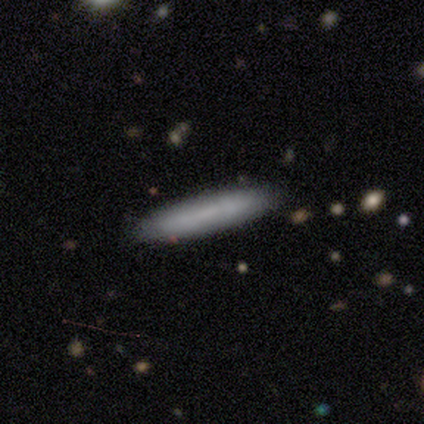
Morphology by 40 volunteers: Smooth or featured?
  - smooth: 80% *
  - featured or disk: 15%
  - star or artifact: 5%
How rounded?
  - cigar-shaped: 91% *
  - in between: 9%
  - round: 0%
Merging?
  - none: 53% *
  - minor disturbance: 3%
  - major disturbance: 3%
  - merger: 3%